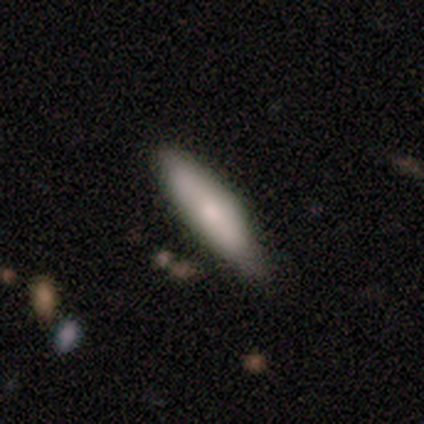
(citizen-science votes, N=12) A smooth galaxy with no disk features (75%) that is in between round and cigar-shaped (56%). Merging: none (67%).